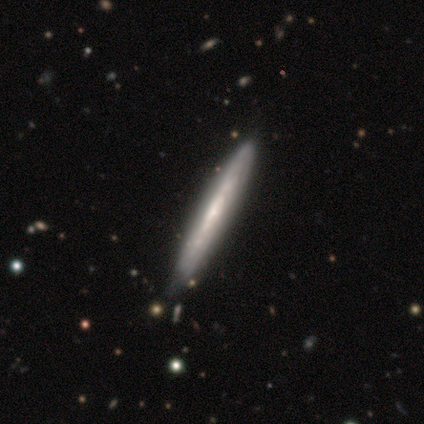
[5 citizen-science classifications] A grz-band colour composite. It shows a smooth galaxy with no disk features (40%, tied with featured or disk) that is in between round and cigar-shaped (50%, tied with cigar-shaped). Merging: none (75%).